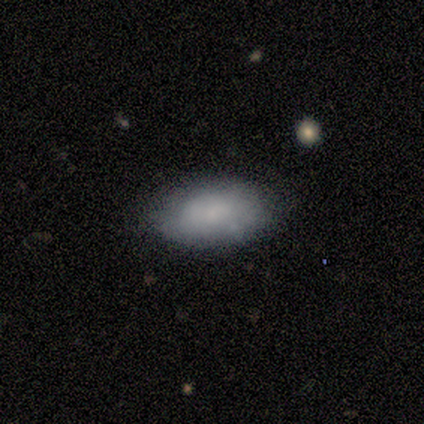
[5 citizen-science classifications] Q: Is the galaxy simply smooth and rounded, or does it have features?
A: smooth — 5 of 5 (100%).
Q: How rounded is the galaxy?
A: in between — 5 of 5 (100%).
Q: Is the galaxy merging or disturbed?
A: none — 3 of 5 (60%).